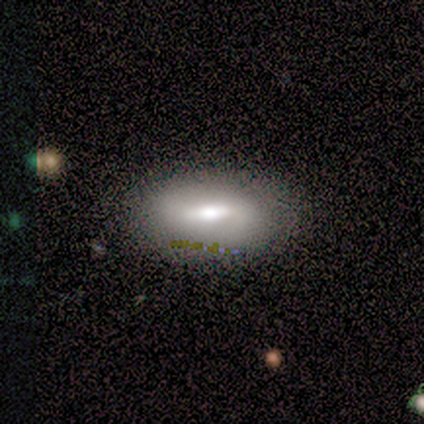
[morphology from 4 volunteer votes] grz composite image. It shows a featured or disk galaxy (50%) with a weak bar (50%, tied with no), no spiral arms (100%) and a moderate central bulge (50%, tied with small). Merging: minor disturbance (67%).